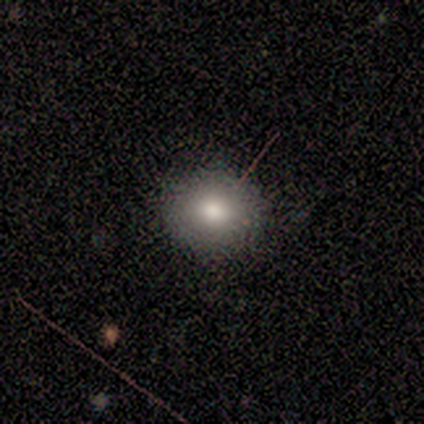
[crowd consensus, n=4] smooth-or-featured: smooth: 75% | star or artifact: 25% | featured or disk: 0%
  how-rounded: round: 100% | in between: 0% | cigar-shaped: 0%
  merging: none: 100% | minor disturbance: 0% | major disturbance: 0% | merger: 0%